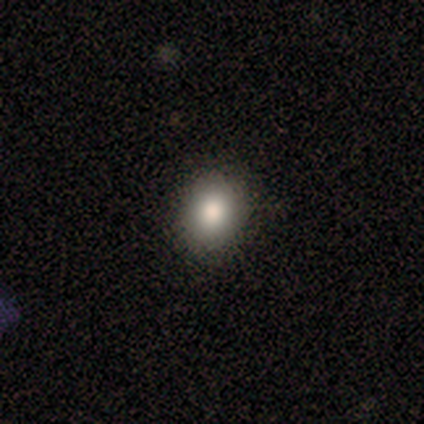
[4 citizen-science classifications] A smooth galaxy with no disk features (50%) that is round (100%). Merging: none (67%).